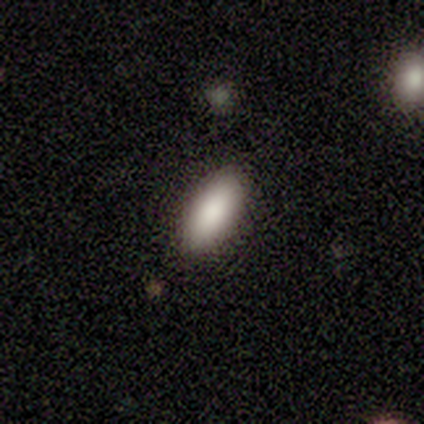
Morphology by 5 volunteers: type=smooth (60%); roundness=in between (100%); merging=none (100%).